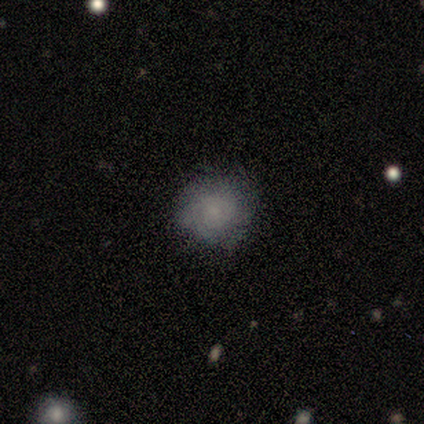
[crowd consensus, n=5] Overall: smooth (60%; featured or disk 20%). How rounded: round (100%). Merging: none (75%).